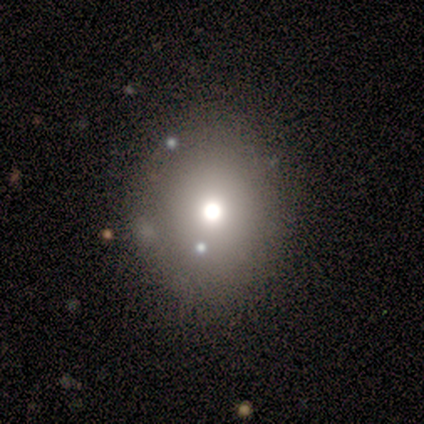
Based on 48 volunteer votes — smooth 75%, featured or disk 17%, star or artifact 8%. Down the decision tree: how rounded — round (69%); merging — none (80%).